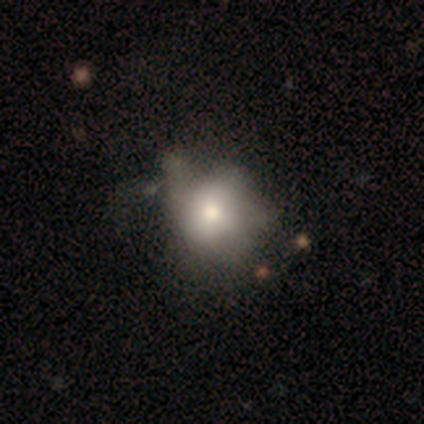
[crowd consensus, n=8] Smooth or featured: smooth — 62% (featured or disk — 25%)
How rounded: round — 60% (in between — 40%)
Merging: none — 43% (minor disturbance — 29%)